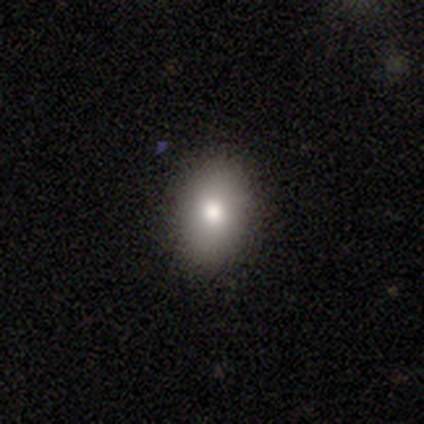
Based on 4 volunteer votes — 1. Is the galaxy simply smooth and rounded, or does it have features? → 100% smooth, 0% featured or disk, 0% star or artifact.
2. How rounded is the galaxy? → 50% round (tied), 50% in between (tied), 0% cigar-shaped.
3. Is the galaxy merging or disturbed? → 75% none, 25% major disturbance, 0% minor disturbance, 0% merger.